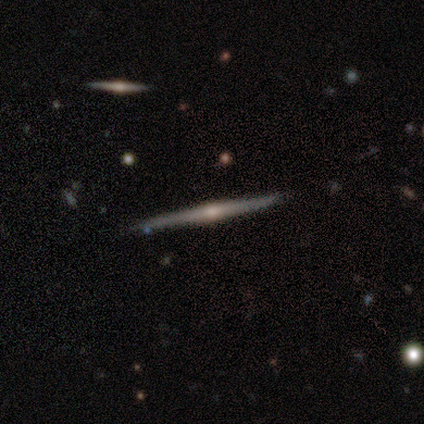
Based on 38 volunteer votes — smooth-or-featured: featured or disk: 84% | smooth: 13% | star or artifact: 3%
  disk-edge-on: yes: 97% | no: 3%
    edge-on-bulge: rounded: 87% | boxy: 6% | none: 6%
  merging: none: 92% | merger: 5% | minor disturbance: 3% | major disturbance: 0%